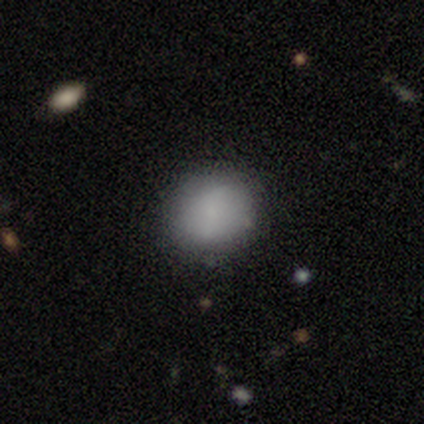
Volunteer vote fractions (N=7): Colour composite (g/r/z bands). It shows a smooth galaxy with no disk features (71%) that is round (100%). Merging: none (83%).